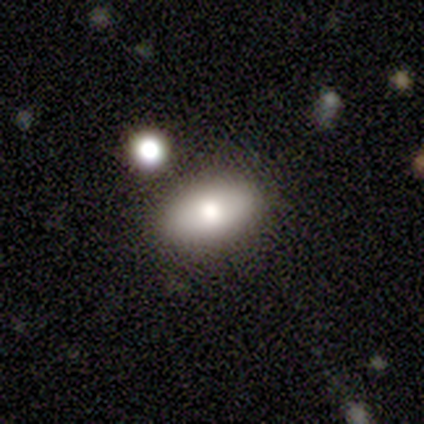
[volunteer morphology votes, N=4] Smooth or featured?
  - smooth: 50% * (tied)
  - featured or disk: 50% * (tied)
  - star or artifact: 0%
How rounded?
  - in between: 100% *
  - round: 0%
  - cigar-shaped: 0%
Merging?
  - none: 50% *
  - minor disturbance: 25%
  - major disturbance: 25%
  - merger: 0%